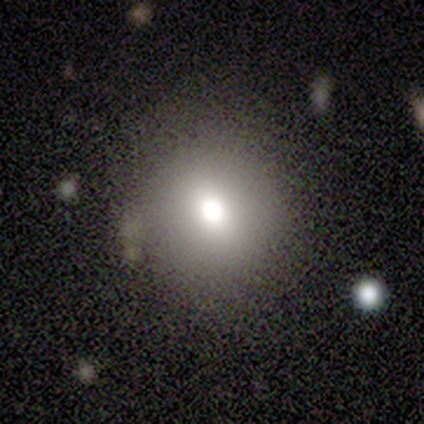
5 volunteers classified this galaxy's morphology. smooth_or_featured: smooth (p=0.60) [alt: featured or disk p=0.40]
how_rounded: round (p=1.00)
merging: none (p=1.00)